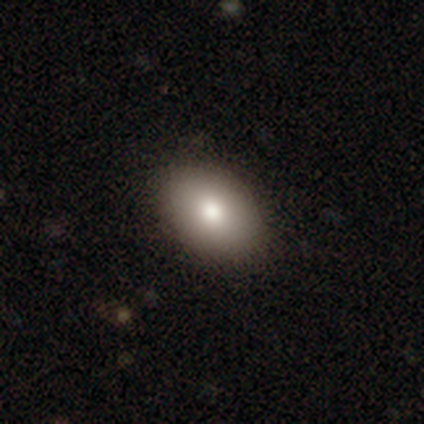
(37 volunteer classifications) smooth 76%, featured or disk 19%, star or artifact 5%. Down the decision tree: how rounded — in between (79%); merging — none (83%).